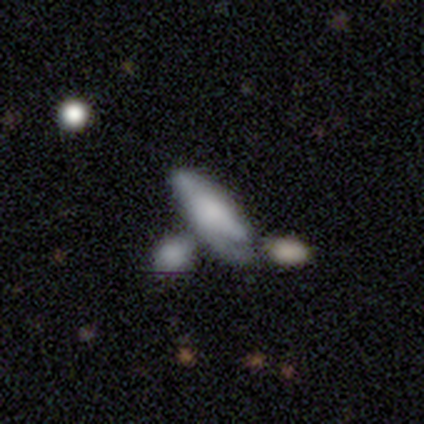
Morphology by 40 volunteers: A featured or disk galaxy (55%) with no bar (92%), 1 (62%) tight (38%, tied with loose) spiral arms (67%) and no central bulge (42%).

Vote fractions:
- Smooth or featured? featured or disk: 55% / smooth: 45% / star or artifact: 0%
- Edge-on disk? no: 55% / yes: 45%
- Bar? no: 92% / strong: 8% / weak: 0%
- Spiral arms? yes: 67% / no: 33%
- Spiral winding? tight: 38% (tied) / loose: 38% (tied) / medium: 25%
- Spiral arm count? 1: 62% / 2: 25% / can't tell: 12% / 3: 0% / 4: 0% / more than 4: 0%
- Bulge size? none: 42% / moderate: 25% / large: 17% / small: 17% / dominant: 0%
- Merging? merger: 42% / minor disturbance: 18% / major disturbance: 18% / none: 12%